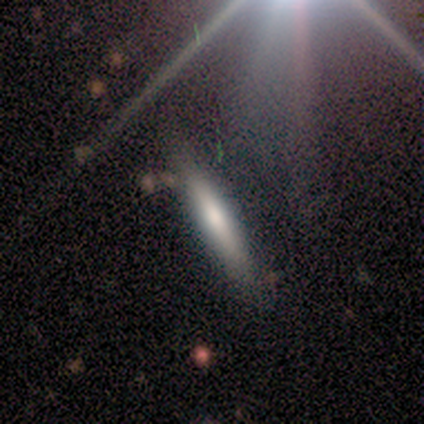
smooth_or_featured: smooth (p=0.80) [alt: featured or disk p=0.20]
how_rounded: cigar-shaped (p=1.00)
merging: none (p=0.80) [alt: minor disturbance p=0.20]